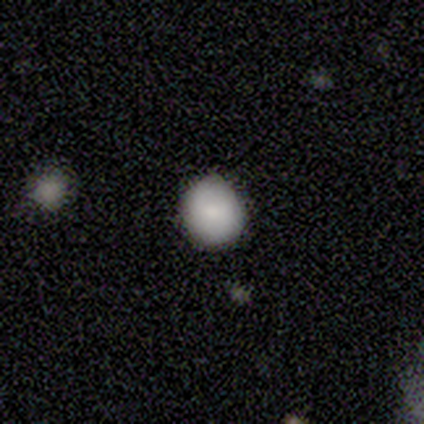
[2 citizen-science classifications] This is clearly a smooth galaxy (100%). How rounded: clearly round (100%). Merging: possibly none (50%, tied with minor disturbance).